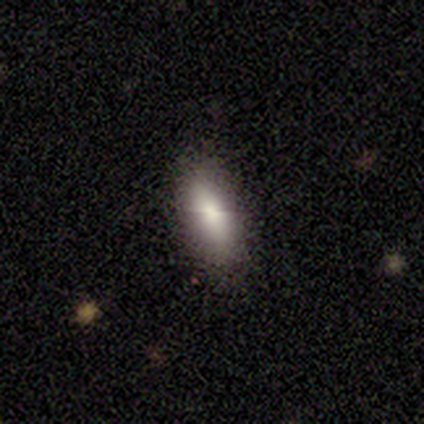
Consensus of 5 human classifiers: Smooth or featured? smooth (60%)
How rounded? in between (100%)
Merging? none (100%)